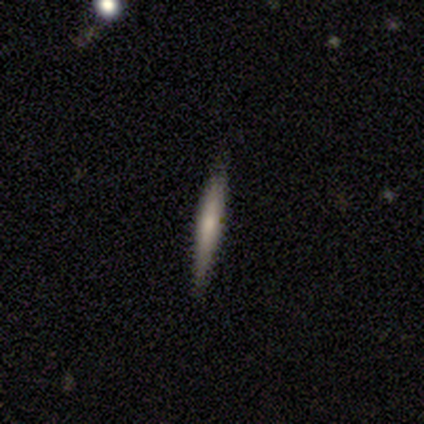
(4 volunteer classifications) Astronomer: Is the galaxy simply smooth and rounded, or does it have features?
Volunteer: featured or disk — 75%.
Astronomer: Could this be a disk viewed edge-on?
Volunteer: yes — 100%.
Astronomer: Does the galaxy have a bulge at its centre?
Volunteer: none — 100%.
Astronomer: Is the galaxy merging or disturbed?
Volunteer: none — 100%.